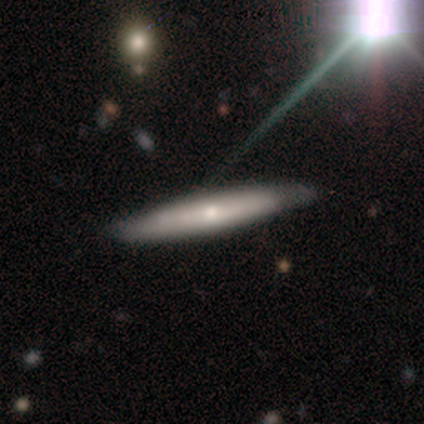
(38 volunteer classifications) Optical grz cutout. It shows a featured or disk galaxy (50%) viewed edge-on (74%) with a rounded central bulge (71%). Merging: none (64%).